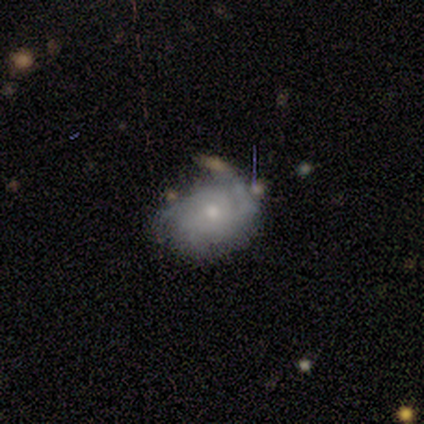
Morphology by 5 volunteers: smooth_or_featured: featured or disk (p=0.60) [alt: star or artifact p=0.40]
disk_edge_on: no (p=1.00)
bar: weak (p=0.67) [alt: no p=0.33]
has_spiral_arms: yes (p=1.00)
spiral_winding: loose (p=0.67) [alt: medium p=0.33]
spiral_arm_count: can't tell (p=0.67) [alt: 1 p=0.33]
bulge_size: small (p=1.00)
merging: none (p=0.67) [alt: minor disturbance p=0.33]